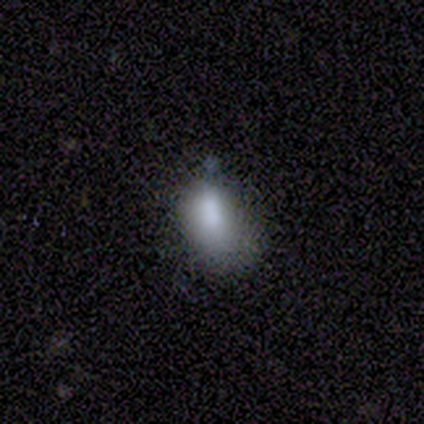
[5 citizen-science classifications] Q: Smooth or featured?
A: smooth (100%)
Q: How rounded?
A: in between (100%)
Q: Merging?
A: merger (40%); runner-up: none (20%)